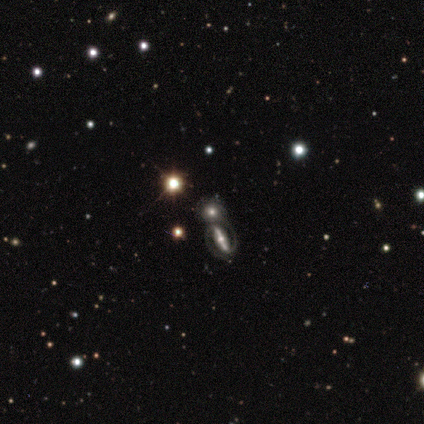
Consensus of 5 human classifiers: Morphology: type=smooth (60%); roundness=round (100%); merging=merger (60%).